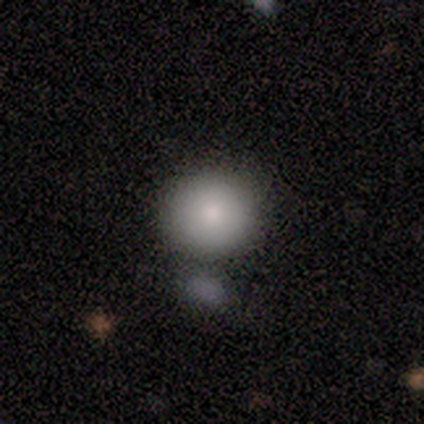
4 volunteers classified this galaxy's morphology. Smooth or featured? 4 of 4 (100%) said smooth. How rounded? 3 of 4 (75%) said round. Merging? 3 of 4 (75%) said none.